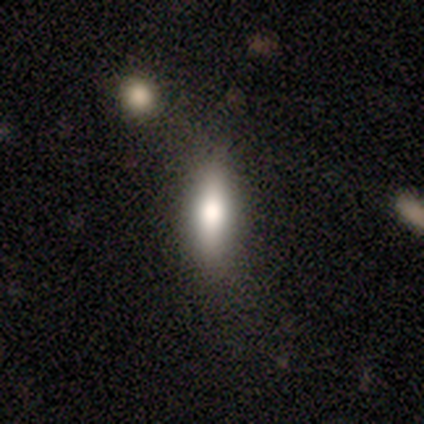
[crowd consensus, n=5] A smooth galaxy with no disk features (80%) that is in between round and cigar-shaped (75%).

Vote fractions:
- Smooth or featured? smooth: 80% / featured or disk: 20% / star or artifact: 0%
- How rounded? in between: 75% / cigar-shaped: 25% / round: 0%
- Merging? none: 100% / minor disturbance: 0% / major disturbance: 0% / merger: 0%